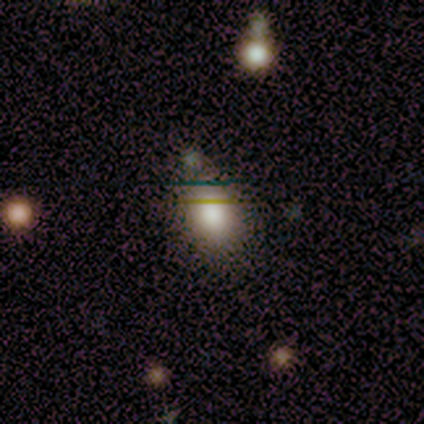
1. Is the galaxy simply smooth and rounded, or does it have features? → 80% smooth, 20% star or artifact, 0% featured or disk.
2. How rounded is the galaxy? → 75% in between, 25% round, 0% cigar-shaped.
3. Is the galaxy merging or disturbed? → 75% none, 25% merger, 0% minor disturbance, 0% major disturbance.